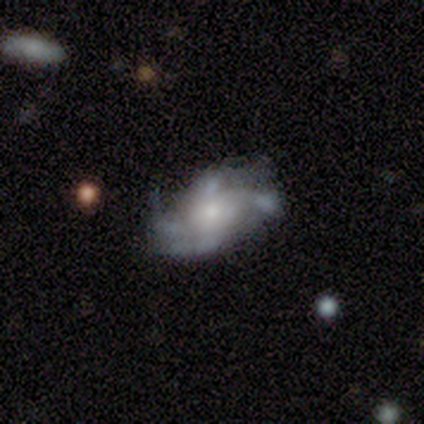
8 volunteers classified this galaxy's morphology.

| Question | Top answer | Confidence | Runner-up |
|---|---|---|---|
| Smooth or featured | featured or disk | 100% | — |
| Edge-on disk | no | 100% | — |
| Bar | no | 75% | weak (25%) |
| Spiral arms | yes | 100% | — |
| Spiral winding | medium | 88% | loose (12%) |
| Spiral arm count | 4 | 62% | 1 (12%) |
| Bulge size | small | 75% | moderate (12%) |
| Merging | none | 75% | minor disturbance (12%) |